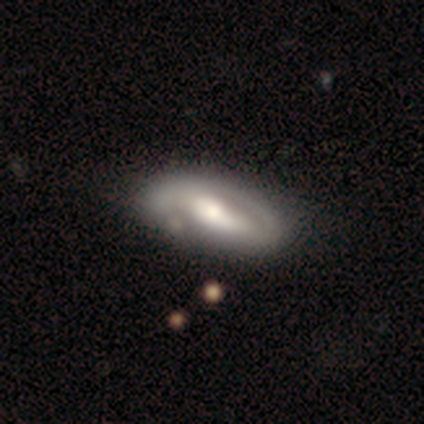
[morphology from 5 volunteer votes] Volunteers were most divided on "bar" (2-way tie): weak: 50%, no: 50%, strong: 0%; "spiral winding" (2-way tie): tight: 50%, medium: 50%, loose: 0%. More confident: spiral arms — yes (100%); spiral arm count — 2 (100%); bulge size — moderate (100%); merging — none (80%); edge-on disk — no (67%); smooth or featured — featured or disk (60%).